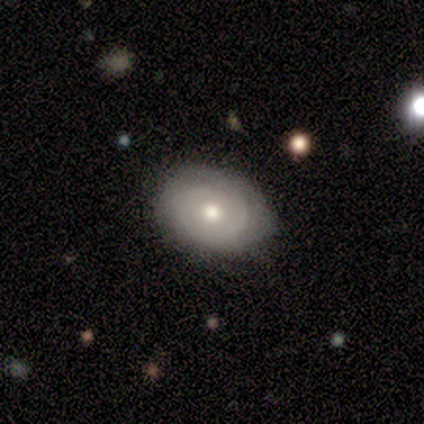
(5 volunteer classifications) Volunteers were most divided on "how rounded": round: 75%, in between: 25%, cigar-shaped: 0%. More confident: smooth or featured — smooth (80%); merging — none (75%).